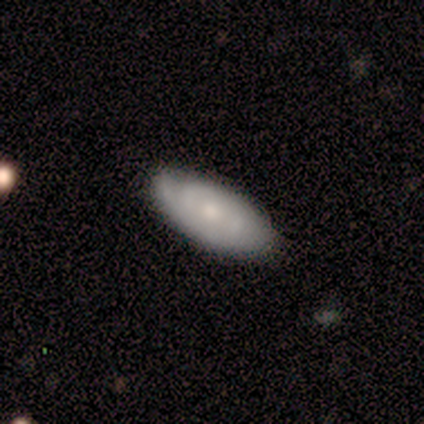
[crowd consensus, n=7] Smooth or featured: featured or disk — 57% (smooth — 43%)
Edge-on disk: yes — 50% (tied with no — 50%)
Edge-on bulge: rounded — 100%
Merging: none — 71% (minor disturbance — 29%)